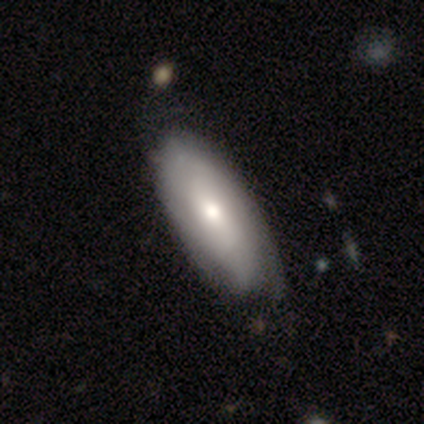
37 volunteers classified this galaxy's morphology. type=smooth (65%); roundness=in between (83%); merging=none (43%).